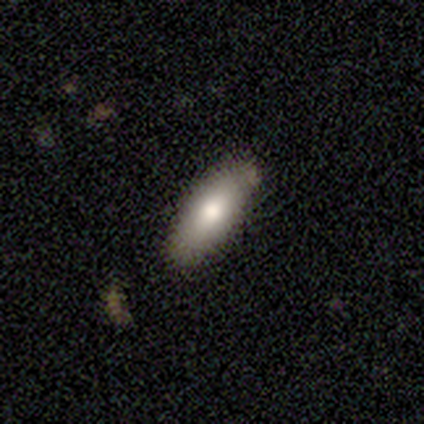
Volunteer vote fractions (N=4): Overall: smooth (100%). How rounded: in between (75%). Merging: none (100%).